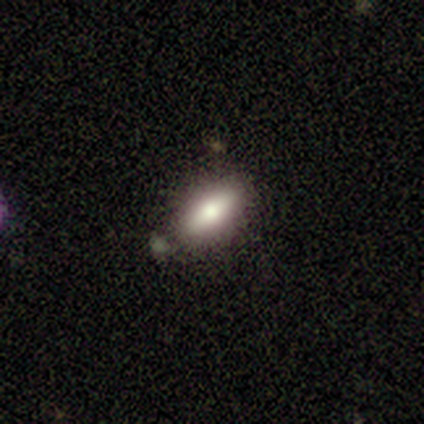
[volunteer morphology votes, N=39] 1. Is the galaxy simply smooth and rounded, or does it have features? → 67% smooth, 26% featured or disk, 8% star or artifact.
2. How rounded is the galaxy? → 81% in between, 19% cigar-shaped, 0% round.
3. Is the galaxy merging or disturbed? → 81% none, 14% merger, 3% minor disturbance, 3% major disturbance.